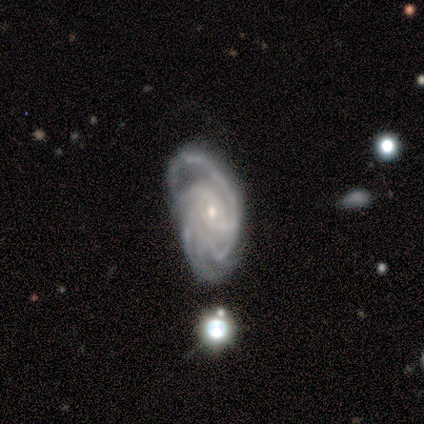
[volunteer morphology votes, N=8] A featured or disk galaxy (100%) with no bar (88%), 3 (38%) medium (62%) spiral arms (100%) and a small central bulge (75%).

Vote fractions:
- Smooth or featured? featured or disk: 100% / smooth: 0% / star or artifact: 0%
- Edge-on disk? no: 100% / yes: 0%
- Bar? no: 88% / weak: 12% / strong: 0%
- Spiral arms? yes: 100% / no: 0%
- Spiral winding? medium: 62% / tight: 25% / loose: 12%
- Spiral arm count? 3: 38% / can't tell: 25% / 2: 12% / 4: 12% / more than 4: 12% / 1: 0%
- Bulge size? small: 75% / moderate: 25% / dominant: 0% / large: 0% / none: 0%
- Merging? none: 50% / minor disturbance: 25% / major disturbance: 25% / merger: 0%